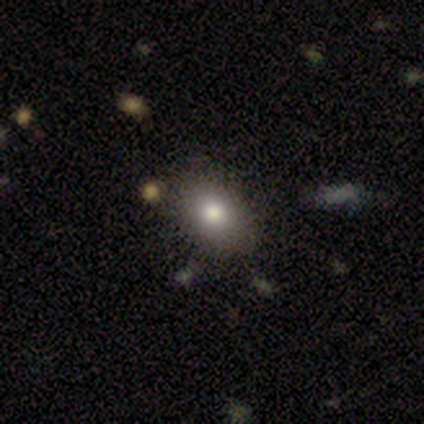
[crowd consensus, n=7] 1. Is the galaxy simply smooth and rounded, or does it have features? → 86% smooth, 14% star or artifact, 0% featured or disk.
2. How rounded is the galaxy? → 83% in between, 17% round, 0% cigar-shaped.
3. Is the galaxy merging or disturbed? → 83% none, 17% major disturbance, 0% minor disturbance, 0% merger.